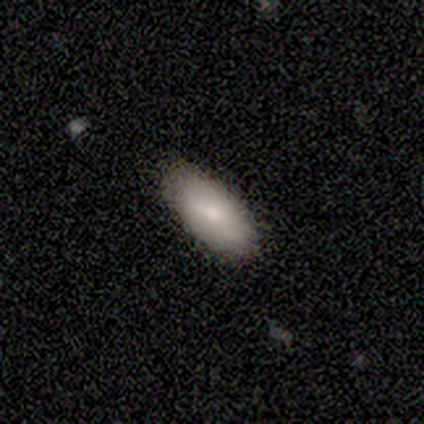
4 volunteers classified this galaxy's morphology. smooth 75%, featured or disk 25%, star or artifact 0%. Down the decision tree: how rounded — in between (100%); merging — none (100%).